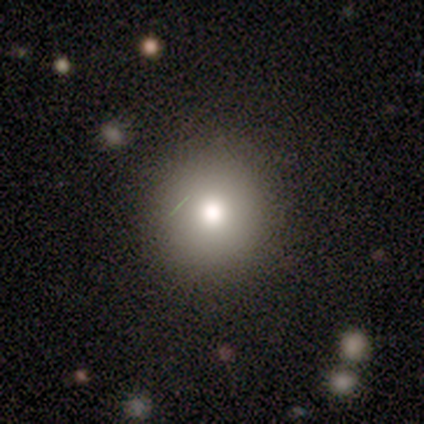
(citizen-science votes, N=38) Smooth or featured? smooth (79%)
How rounded? round (93%)
Merging? none (81%)